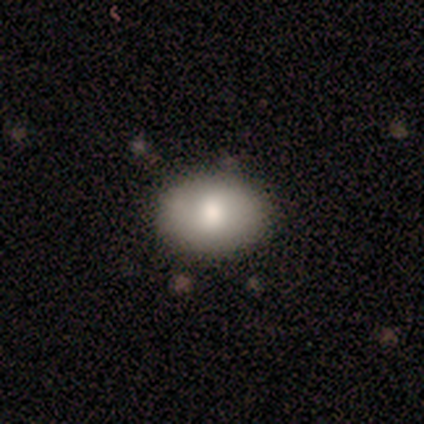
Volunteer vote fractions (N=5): Smooth or featured?
  - smooth: 40% * (tied)
  - star or artifact: 40% * (tied)
  - featured or disk: 20%
How rounded?
  - in between: 100% *
  - round: 0%
  - cigar-shaped: 0%
Merging?
  - none: 100% *
  - minor disturbance: 0%
  - major disturbance: 0%
  - merger: 0%